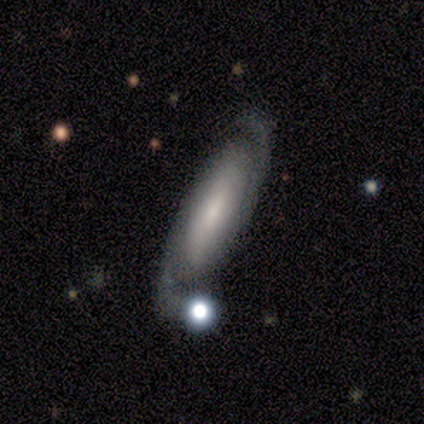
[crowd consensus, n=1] This is clearly a featured or disk galaxy (100%). It is clearly viewed edge-on (100%). Edge-on bulge: clearly none (100%). Merging: clearly major disturbance (100%).